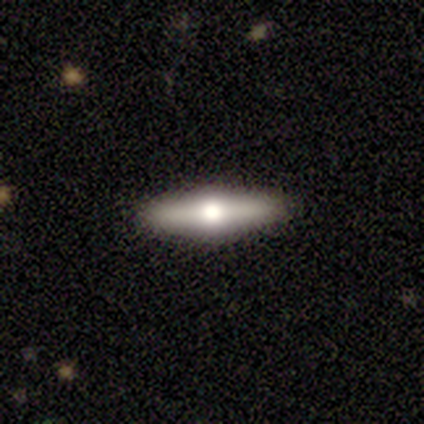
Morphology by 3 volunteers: Q: Smooth or featured?
A: smooth (67%); runner-up: featured or disk (33%)
Q: How rounded?
A: cigar-shaped (100%)
Q: Merging?
A: none (67%); runner-up: major disturbance (33%)